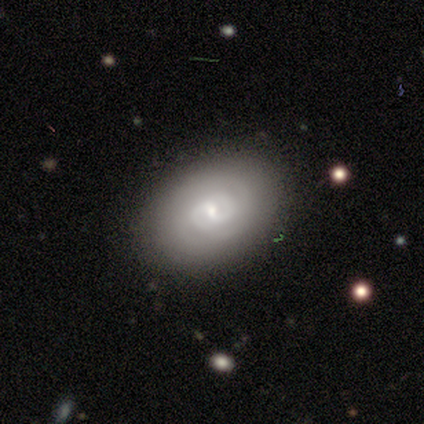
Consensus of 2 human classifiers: A featured or disk galaxy (100%) with a strong bar (50%, tied with weak), 2 (100%) tight (50%, tied with medium) spiral arms (100%) and a moderate central bulge (50%, tied with small).

Vote fractions:
- Smooth or featured? featured or disk: 100% / smooth: 0% / star or artifact: 0%
- Edge-on disk? no: 100% / yes: 0%
- Bar? strong: 50% (tied) / weak: 50% (tied) / no: 0%
- Spiral arms? yes: 100% / no: 0%
- Spiral winding? tight: 50% (tied) / medium: 50% (tied) / loose: 0%
- Spiral arm count? 2: 100% / 1: 0% / 3: 0% / 4: 0% / more than 4: 0% / can't tell: 0%
- Bulge size? moderate: 50% (tied) / small: 50% (tied) / dominant: 0% / large: 0% / none: 0%
- Merging? none: 100% / minor disturbance: 0% / major disturbance: 0% / merger: 0%